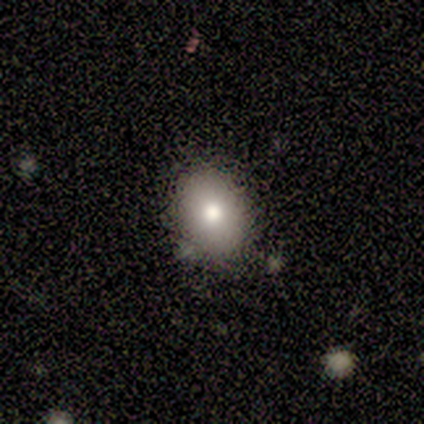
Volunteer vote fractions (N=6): Smooth or featured: smooth — 83% (featured or disk — 17%)
How rounded: in between — 60% (round — 40%)
Merging: none — 83% (minor disturbance — 17%)